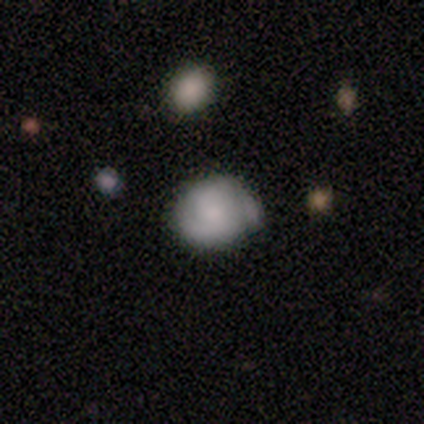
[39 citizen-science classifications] Smooth or featured? 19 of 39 (49%) said smooth. How rounded? 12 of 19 (63%) said round. Merging? 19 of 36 (53%) said none.